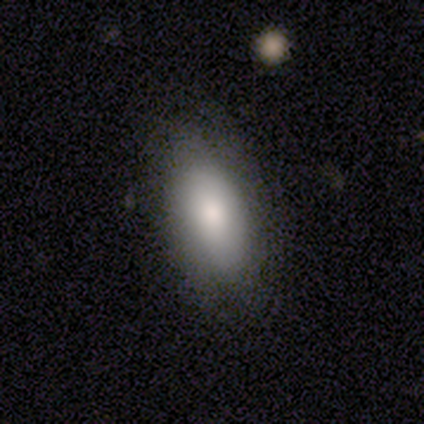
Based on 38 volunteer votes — Smooth or featured? smooth (82%)
How rounded? in between (94%)
Merging? none (72%)